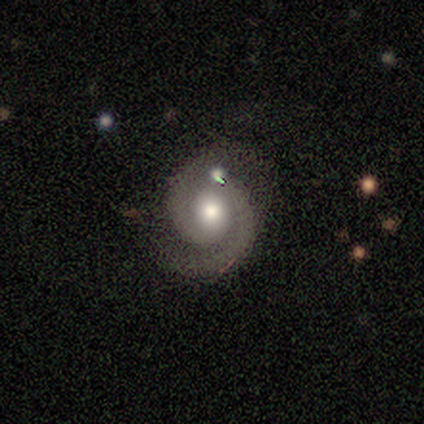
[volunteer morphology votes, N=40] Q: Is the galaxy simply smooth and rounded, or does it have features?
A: featured or disk — 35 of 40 (88%).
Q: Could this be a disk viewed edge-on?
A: no — 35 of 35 (100%).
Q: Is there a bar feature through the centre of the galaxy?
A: no — 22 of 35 (63%).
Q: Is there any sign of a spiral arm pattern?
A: yes — 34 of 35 (97%).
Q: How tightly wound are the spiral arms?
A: tight — 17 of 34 (50%).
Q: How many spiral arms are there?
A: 2 — 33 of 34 (97%).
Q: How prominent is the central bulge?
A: moderate — 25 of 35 (71%).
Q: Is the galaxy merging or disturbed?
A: none — 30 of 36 (83%).